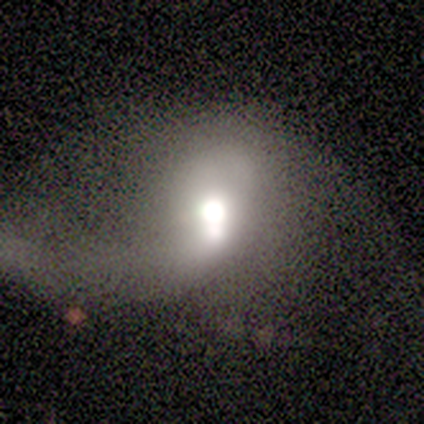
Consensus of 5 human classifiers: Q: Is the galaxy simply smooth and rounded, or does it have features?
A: smooth — 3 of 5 (60%).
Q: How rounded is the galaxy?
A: round — 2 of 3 (67%).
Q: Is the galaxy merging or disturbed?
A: major disturbance — 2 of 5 (40%, tied with merger).